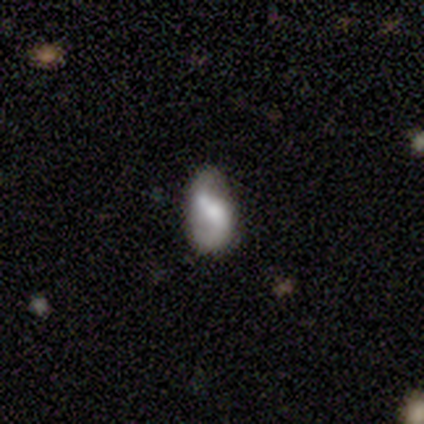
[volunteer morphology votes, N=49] This appears to be a featured or disk galaxy (69%) with a strong bar (36%, tied with no), 2 (92%) loose (42%) spiral arms (79%) and a moderate central bulge (36%). Merging: none (48%).